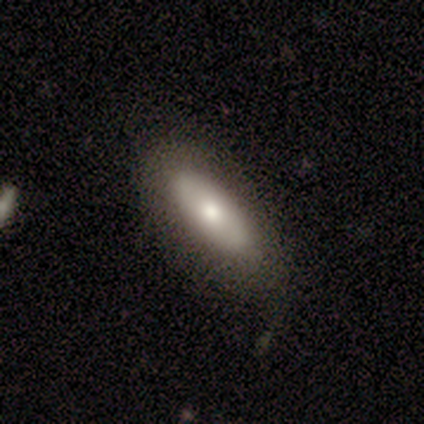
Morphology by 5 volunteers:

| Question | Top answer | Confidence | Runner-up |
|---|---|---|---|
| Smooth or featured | smooth | 60% | featured or disk (40%) |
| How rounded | in between | 100% | — |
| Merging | none | 80% | major disturbance (20%) |